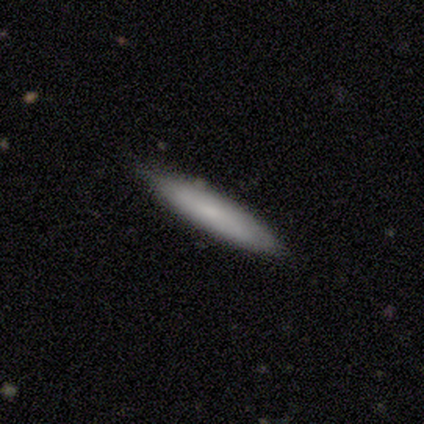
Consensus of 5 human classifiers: Smooth or featured: smooth — 80% (featured or disk — 20%)
How rounded: cigar-shaped — 75% (in between — 25%)
Merging: none — 100%